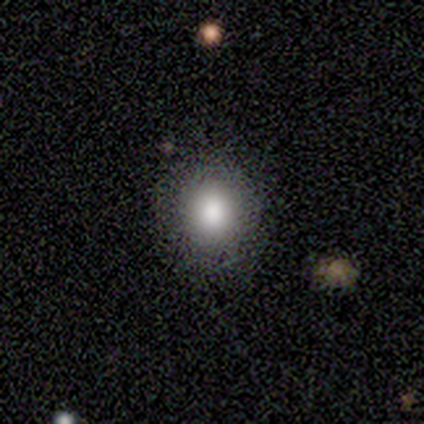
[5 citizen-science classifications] A smooth galaxy with no disk features (100%) that is in between round and cigar-shaped (60%).

Vote fractions:
- Smooth or featured? smooth: 100% / featured or disk: 0% / star or artifact: 0%
- How rounded? in between: 60% / round: 40% / cigar-shaped: 0%
- Merging? none: 80% / minor disturbance: 20% / major disturbance: 0% / merger: 0%